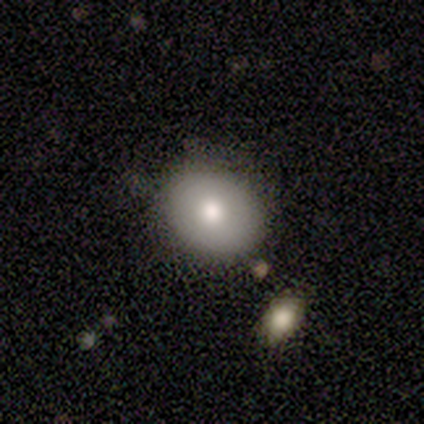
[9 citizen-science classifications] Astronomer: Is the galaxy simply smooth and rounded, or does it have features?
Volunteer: smooth — 89%.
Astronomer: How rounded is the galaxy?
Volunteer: round — 50%, tied with in between at 50%.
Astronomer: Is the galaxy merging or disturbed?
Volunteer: none — 100%.